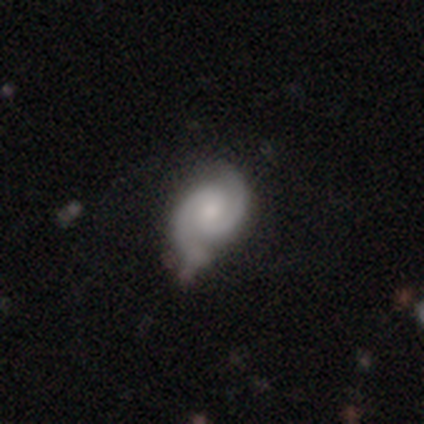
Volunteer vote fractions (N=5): A featured or disk galaxy (100%) with a weak bar (80%), 2 (100%) tight (40%, tied with medium) spiral arms (100%) and a moderate central bulge (60%).

Vote fractions:
- Smooth or featured? featured or disk: 100% / smooth: 0% / star or artifact: 0%
- Edge-on disk? no: 100% / yes: 0%
- Bar? weak: 80% / strong: 20% / no: 0%
- Spiral arms? yes: 100% / no: 0%
- Spiral winding? tight: 40% (tied) / medium: 40% (tied) / loose: 20%
- Spiral arm count? 2: 100% / 1: 0% / 3: 0% / 4: 0% / more than 4: 0% / can't tell: 0%
- Bulge size? moderate: 60% / large: 20% / small: 20% / dominant: 0% / none: 0%
- Merging? minor disturbance: 80% / none: 20% / major disturbance: 0% / merger: 0%